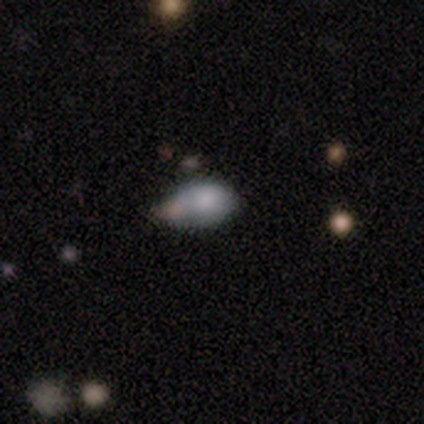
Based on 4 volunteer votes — A smooth galaxy with no disk features (75%) that is in between round and cigar-shaped (67%).

Vote fractions:
- Smooth or featured? smooth: 75% / star or artifact: 25% / featured or disk: 0%
- How rounded? in between: 67% / round: 33% / cigar-shaped: 0%
- Merging? none: 67% / major disturbance: 33% / minor disturbance: 0% / merger: 0%